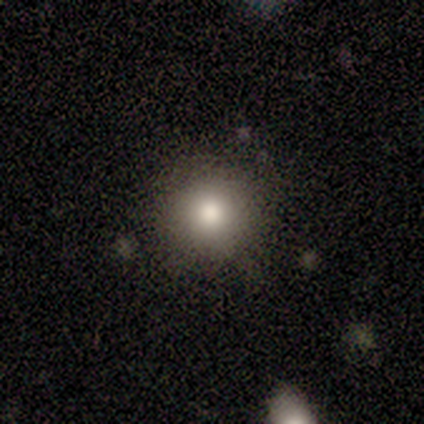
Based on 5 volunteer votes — smooth_or_featured: smooth (p=0.80) [alt: featured or disk p=0.20]
how_rounded: round (p=1.00)
merging: none (p=1.00)